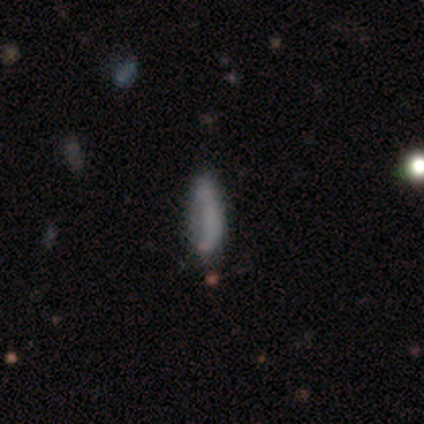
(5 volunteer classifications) Smooth or featured? smooth (60%)
How rounded? in between (67%)
Merging? none (67%)